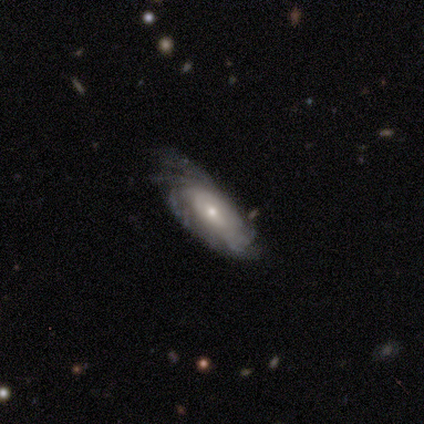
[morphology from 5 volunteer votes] A featured or disk galaxy (100%) with no bar (100%), tight (75%) spiral arms (80%) and a small central bulge (80%).

Vote fractions:
- Smooth or featured? featured or disk: 100% / smooth: 0% / star or artifact: 0%
- Edge-on disk? no: 100% / yes: 0%
- Bar? no: 100% / strong: 0% / weak: 0%
- Spiral arms? yes: 80% / no: 20%
- Spiral winding? tight: 75% / medium: 25% / loose: 0%
- Spiral arm count? can't tell: 75% / 3: 25% / 1: 0% / 2: 0% / 4: 0% / more than 4: 0%
- Bulge size? small: 80% / moderate: 20% / dominant: 0% / large: 0% / none: 0%
- Merging? minor disturbance: 60% / none: 40% / major disturbance: 0% / merger: 0%